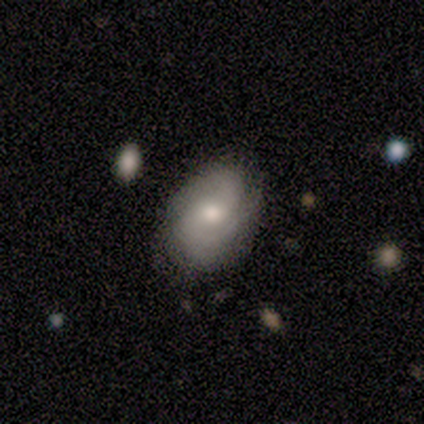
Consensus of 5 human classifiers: Overall: featured or disk (60%; smooth 20%). Edge-on disk: no (100%). Bar: no (100%). Spiral arms: yes (100%). Spiral arm count: 2 (67%; 3 33%). Spiral winding: medium (67%; loose 33%). Bulge size: moderate (67%; large 33%). Merging: none (50%, tied with minor disturbance).